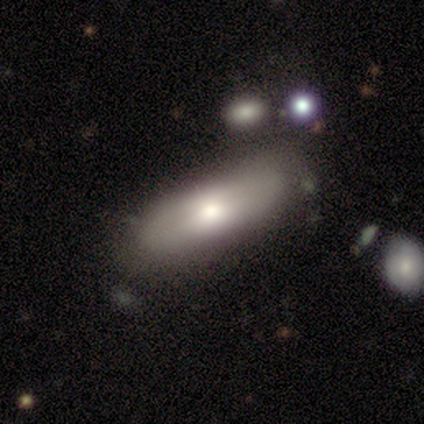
A smooth galaxy with no disk features (60%) that is in between round and cigar-shaped (67%).

Vote fractions:
- Smooth or featured? smooth: 60% / featured or disk: 20% / star or artifact: 20%
- How rounded? in between: 67% / cigar-shaped: 33% / round: 0%
- Merging? none: 75% / minor disturbance: 25% / major disturbance: 0% / merger: 0%